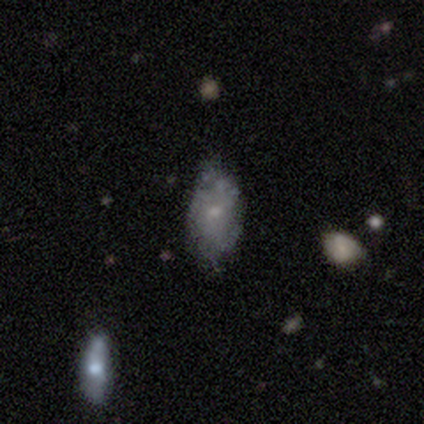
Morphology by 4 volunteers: smooth-or-featured: smooth: 75% | featured or disk: 25% | star or artifact: 0%
  how-rounded: in between: 100% | round: 0% | cigar-shaped: 0%
  merging: none: 100% | minor disturbance: 0% | major disturbance: 0% | merger: 0%